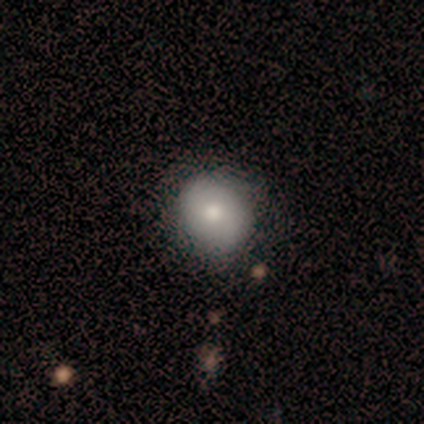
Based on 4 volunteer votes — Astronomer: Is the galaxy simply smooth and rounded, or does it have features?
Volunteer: smooth — 100%.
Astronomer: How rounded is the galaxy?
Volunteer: round — 100%.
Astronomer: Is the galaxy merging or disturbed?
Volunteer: none — 75%.